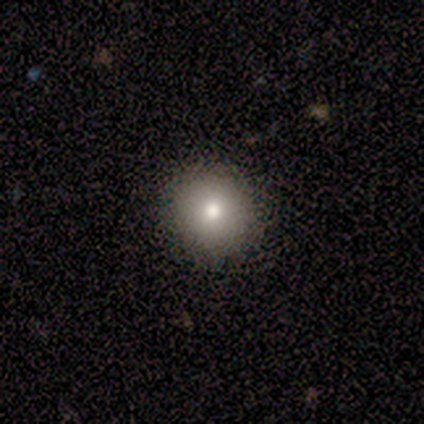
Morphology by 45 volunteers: This is likely a smooth galaxy (78%). How rounded: clearly round (94%). Merging: clearly none (88%).